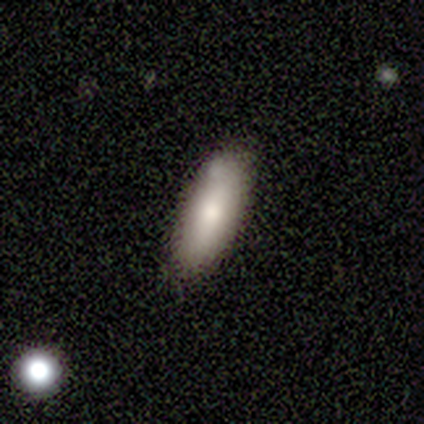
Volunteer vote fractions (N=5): Q: Smooth or featured?
A: smooth (100%)
Q: How rounded?
A: cigar-shaped (60%); runner-up: in between (40%)
Q: Merging?
A: none (60%); runner-up: minor disturbance (20%)